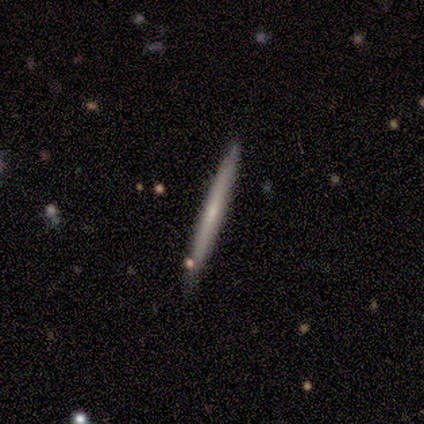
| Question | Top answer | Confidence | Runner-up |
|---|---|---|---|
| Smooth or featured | smooth | 60% | featured or disk (40%) |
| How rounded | cigar-shaped | 100% | — |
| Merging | none | 80% | minor disturbance (20%) |